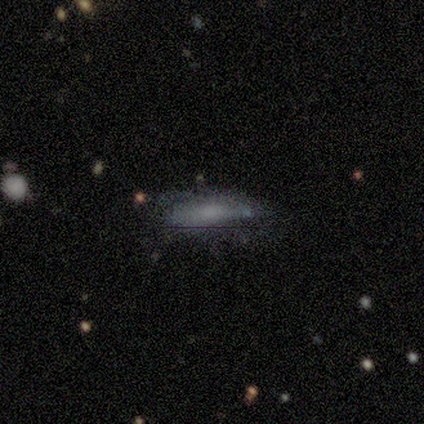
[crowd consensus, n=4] This appears to be a featured or disk galaxy (75%) with no bar (100%), tight (100%) spiral arms (50%, tied with no) and a moderate central bulge (50%, tied with none). Merging: none (100%).